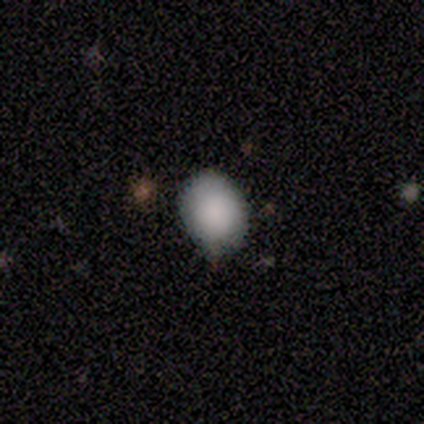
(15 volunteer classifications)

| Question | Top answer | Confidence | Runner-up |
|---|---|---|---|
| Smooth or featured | smooth | 93% | featured or disk (7%) |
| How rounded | in between | 57% | round (43%) |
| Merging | none | 67% | minor disturbance (27%) |